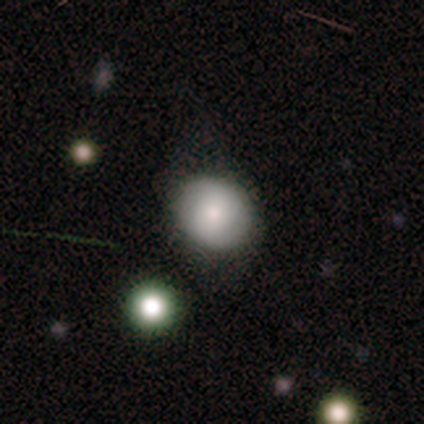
smooth_or_featured: smooth (p=0.82) [alt: featured or disk p=0.15]
how_rounded: round (p=0.73) [alt: in between p=0.27]
merging: none (p=0.69) [alt: minor disturbance p=0.15]